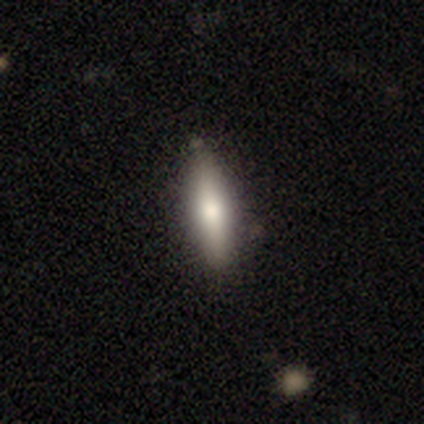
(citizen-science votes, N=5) Volunteers were most divided on "smooth or featured": smooth: 60%, featured or disk: 20%, star or artifact: 20%. More confident: how rounded — cigar-shaped (100%); merging — none (75%).